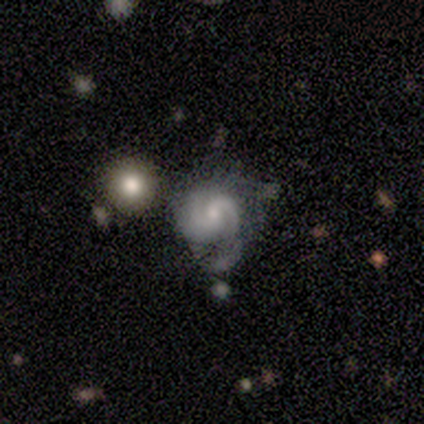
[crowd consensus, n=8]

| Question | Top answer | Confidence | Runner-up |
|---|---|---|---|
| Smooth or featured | featured or disk | 100% | — |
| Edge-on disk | no | 100% | — |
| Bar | weak | 50% | tied: no (50%) |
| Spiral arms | yes | 100% | — |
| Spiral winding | medium | 50% | tight (25%) |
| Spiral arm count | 2 | 100% | — |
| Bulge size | small | 62% | moderate (38%) |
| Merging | minor disturbance | 50% | none (25%) |